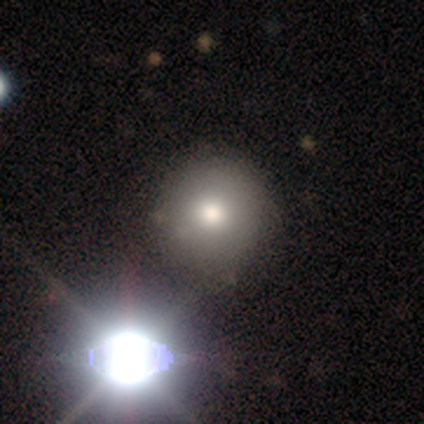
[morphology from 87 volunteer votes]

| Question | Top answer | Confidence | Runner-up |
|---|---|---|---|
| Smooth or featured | smooth | 67% | star or artifact (21%) |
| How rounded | round | 91% | in between (5%) |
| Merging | none | 87% | minor disturbance (6%) |